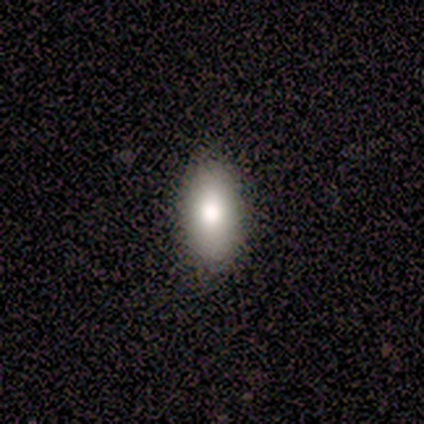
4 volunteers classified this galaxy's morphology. Q: Smooth or featured?
A: smooth (75%); runner-up: featured or disk (25%)
Q: How rounded?
A: in between (67%); runner-up: cigar-shaped (33%)
Q: Merging?
A: none (50%); tied with: minor disturbance (50%)